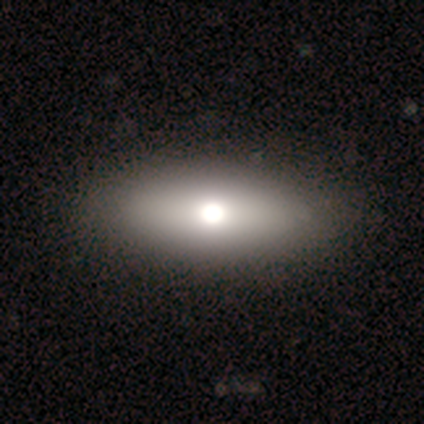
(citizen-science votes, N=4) Q: Smooth or featured?
A: featured or disk (75%); runner-up: smooth (25%)
Q: Edge-on disk?
A: yes (67%); runner-up: no (33%)
Q: Edge-on bulge?
A: rounded (100%)
Q: Merging?
A: none (100%)